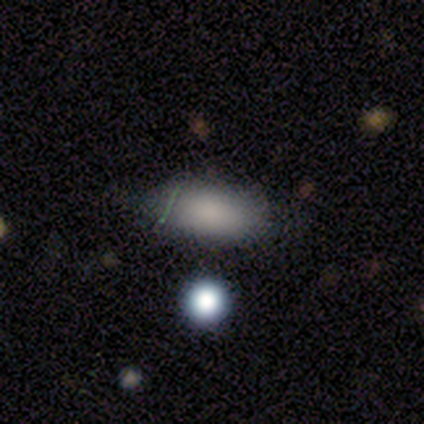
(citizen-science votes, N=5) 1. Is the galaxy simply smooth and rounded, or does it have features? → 100% smooth, 0% featured or disk, 0% star or artifact.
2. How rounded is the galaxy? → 100% in between, 0% round, 0% cigar-shaped.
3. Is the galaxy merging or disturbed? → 100% none, 0% minor disturbance, 0% major disturbance, 0% merger.